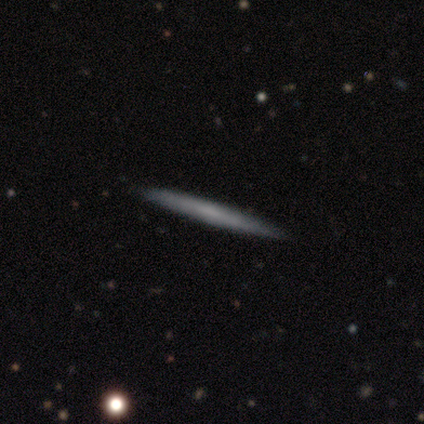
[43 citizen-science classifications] This is possibly a smooth galaxy (53%). How rounded: clearly cigar-shaped (96%). Merging: clearly none (93%).